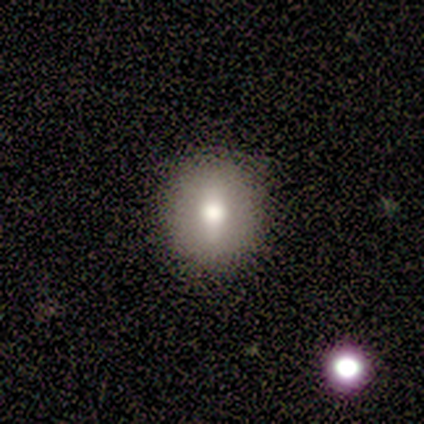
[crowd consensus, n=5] Morphology: type=smooth (60%); roundness=round (100%); merging=none (100%).